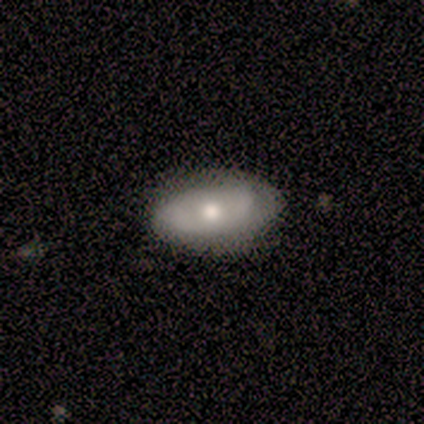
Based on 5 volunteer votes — Volunteers were most divided on "smooth or featured": featured or disk: 60%, smooth: 40%, star or artifact: 0%. More confident: edge-on disk — no (100%); bar — no (100%); spiral arms — no (100%); merging — none (80%); bulge size — moderate (67%).